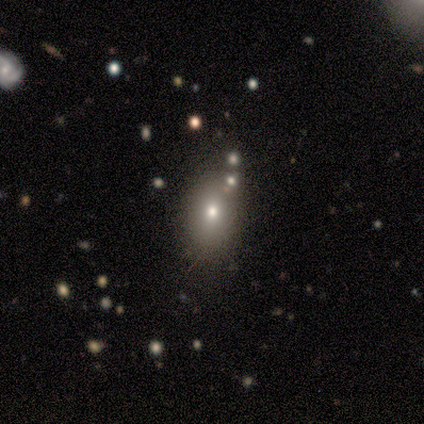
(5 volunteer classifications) This is likely a smooth galaxy (60%). How rounded: clearly in between (100%). Merging: possibly none (50%).